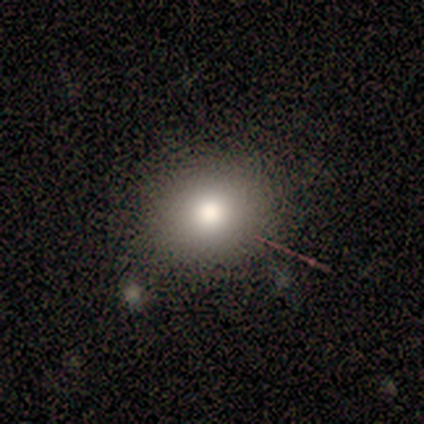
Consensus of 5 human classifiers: Smooth or featured? 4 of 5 (80%) said smooth. How rounded? 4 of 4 (100%) said round. Merging? 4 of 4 (100%) said none.